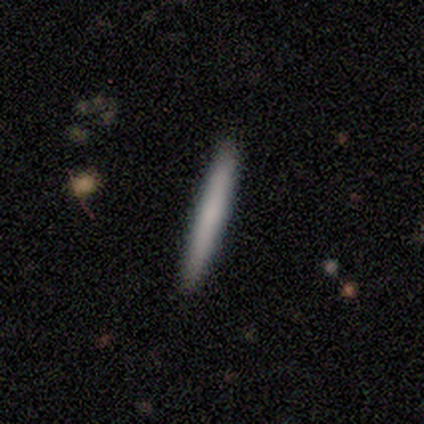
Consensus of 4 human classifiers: A smooth galaxy with no disk features (100%) that is cigar-shaped (100%). Merging: none (100%).